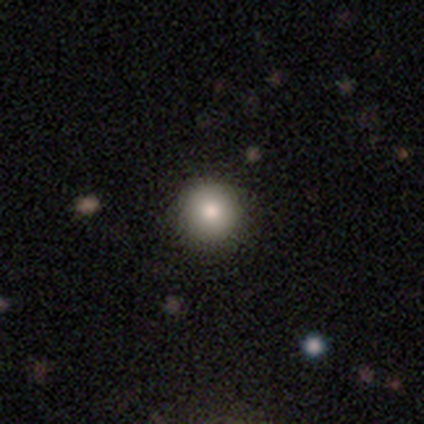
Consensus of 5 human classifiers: This is likely a smooth galaxy (60%). How rounded: clearly round (100%). Merging: clearly none (100%).